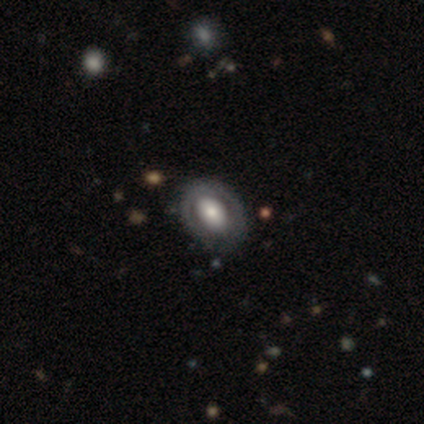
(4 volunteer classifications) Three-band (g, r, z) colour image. It shows a smooth galaxy with no disk features (75%) that is in between round and cigar-shaped (100%). Merging: minor disturbance (50%).